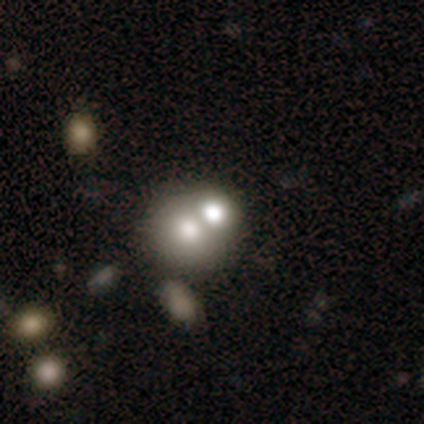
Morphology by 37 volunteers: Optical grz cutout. It shows a smooth galaxy with no disk features (76%) that is round (79%). Merging: merger (76%).